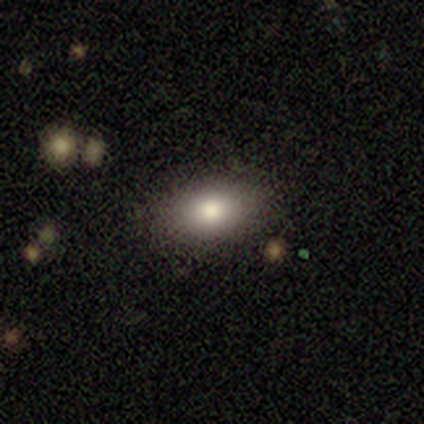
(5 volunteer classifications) Overall: smooth (100%). How rounded: in between (80%). Merging: none (80%).